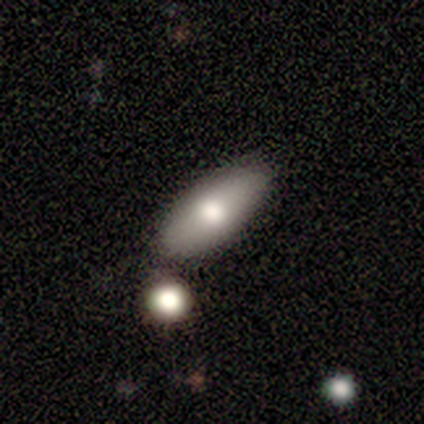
Volunteers were most divided on "how rounded": in between: 75%, cigar-shaped: 25%, round: 0%. More confident: smooth or featured — smooth (100%); merging — none (100%).